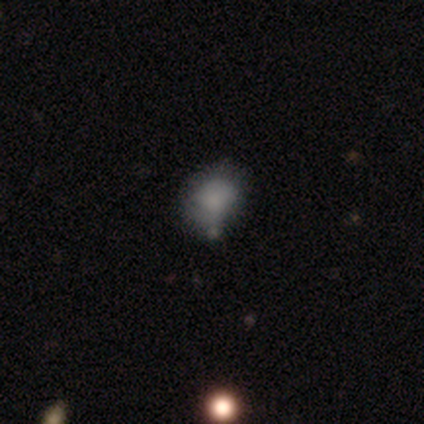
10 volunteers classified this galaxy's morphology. Smooth or featured? smooth (80%)
How rounded? round (62%)
Merging? minor disturbance (33%)